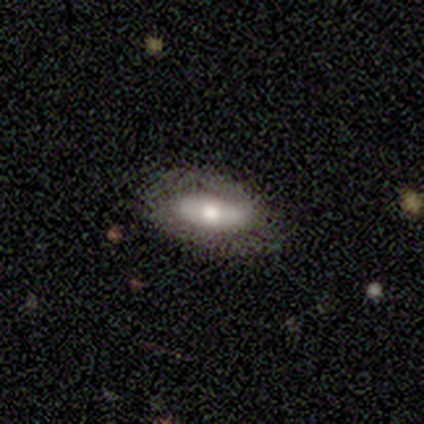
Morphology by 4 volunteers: Overall: smooth (50%; featured or disk 25%). How rounded: in between (100%). Merging: none (100%).